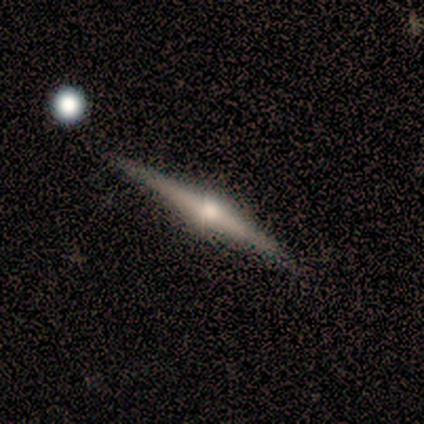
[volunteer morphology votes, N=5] Smooth or featured?
  - featured or disk: 100% *
  - smooth: 0%
  - star or artifact: 0%
Edge-on disk?
  - yes: 100% *
  - no: 0%
Edge-on bulge?
  - rounded: 100% *
  - boxy: 0%
  - none: 0%
Merging?
  - none: 80% *
  - minor disturbance: 20%
  - major disturbance: 0%
  - merger: 0%